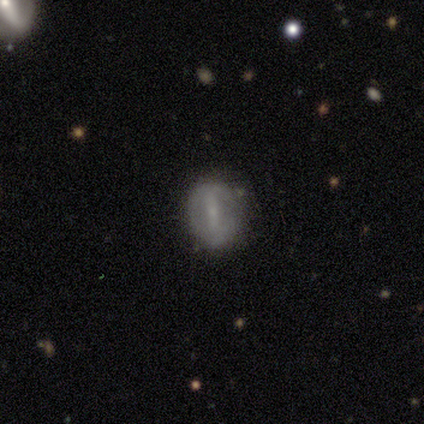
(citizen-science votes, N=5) Q: Smooth or featured?
A: smooth (80%); runner-up: featured or disk (20%)
Q: How rounded?
A: round (50%); tied with: in between (50%)
Q: Merging?
A: none (60%); runner-up: minor disturbance (40%)